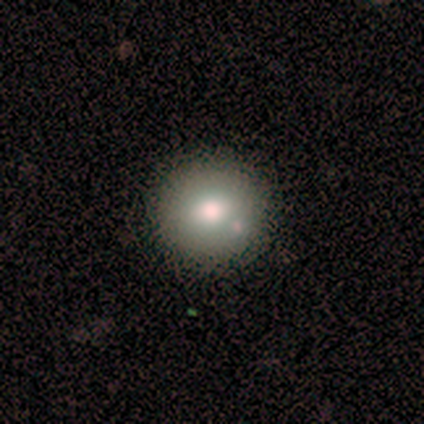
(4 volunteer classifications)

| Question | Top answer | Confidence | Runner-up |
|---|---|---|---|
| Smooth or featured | smooth | 75% | featured or disk (25%) |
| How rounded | round | 100% | — |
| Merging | none | 50% | minor disturbance (25%) |